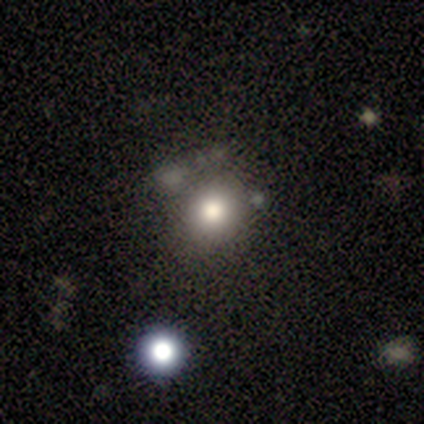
A smooth galaxy with no disk features (69%) that is round (81%). Merging: none (87%).